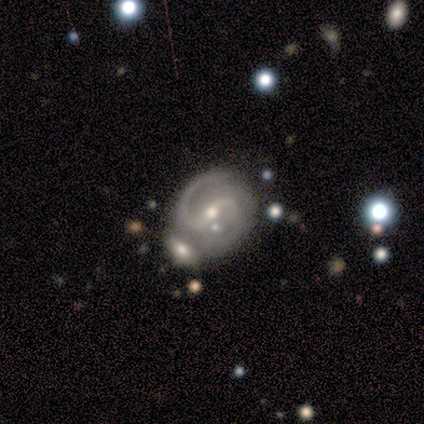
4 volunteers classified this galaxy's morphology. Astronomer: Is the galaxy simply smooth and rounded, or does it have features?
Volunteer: featured or disk — 100%.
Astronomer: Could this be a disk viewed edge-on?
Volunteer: no — 100%.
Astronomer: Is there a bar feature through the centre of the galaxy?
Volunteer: weak — 50%.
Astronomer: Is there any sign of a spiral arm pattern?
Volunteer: yes — 100%.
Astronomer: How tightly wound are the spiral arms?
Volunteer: tight — 50%, tied with medium at 50%.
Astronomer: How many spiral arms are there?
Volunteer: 2 — 100%.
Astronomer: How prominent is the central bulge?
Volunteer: small — 75%.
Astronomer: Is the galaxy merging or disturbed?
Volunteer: none — 50%.